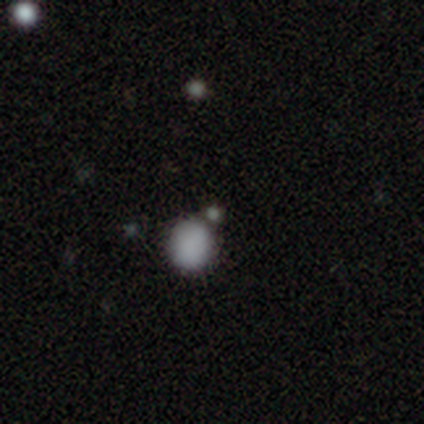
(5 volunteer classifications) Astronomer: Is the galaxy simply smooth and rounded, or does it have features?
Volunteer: smooth — 100%.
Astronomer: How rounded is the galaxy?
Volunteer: round — 80%.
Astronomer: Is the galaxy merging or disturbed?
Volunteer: none — 60% (runner-up: merger, 40%).